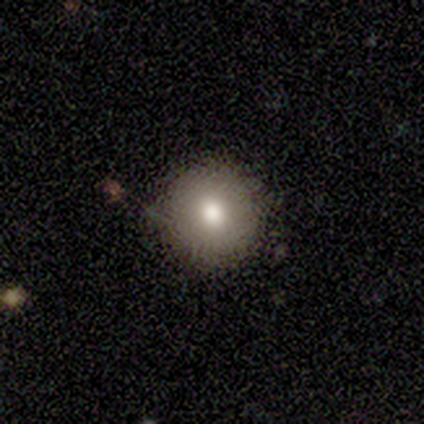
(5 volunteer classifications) A smooth galaxy with no disk features (100%) that is round (100%). Merging: none (80%).